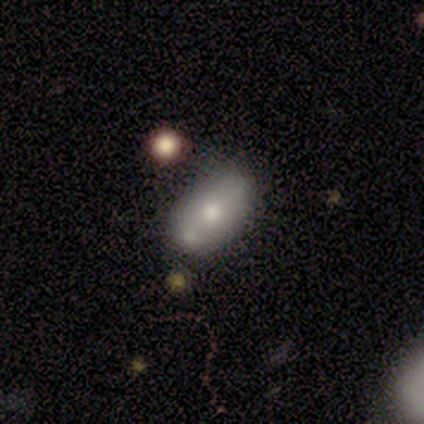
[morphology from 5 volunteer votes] Smooth or featured?
  - smooth: 60% *
  - featured or disk: 40%
  - star or artifact: 0%
How rounded?
  - in between: 100% *
  - round: 0%
  - cigar-shaped: 0%
Merging?
  - none: 80% *
  - minor disturbance: 20%
  - major disturbance: 0%
  - merger: 0%